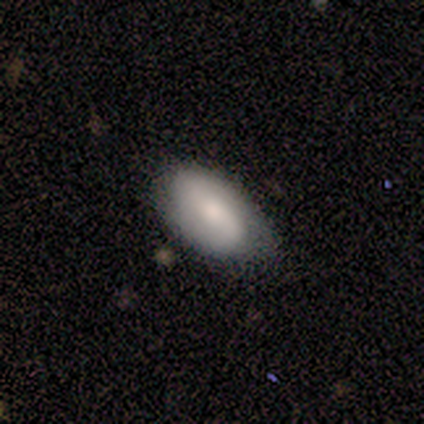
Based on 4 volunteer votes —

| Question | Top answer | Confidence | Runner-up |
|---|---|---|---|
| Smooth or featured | smooth | 50% | tied: featured or disk (50%) |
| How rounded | in between | 100% | — |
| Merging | none | 75% | major disturbance (25%) |